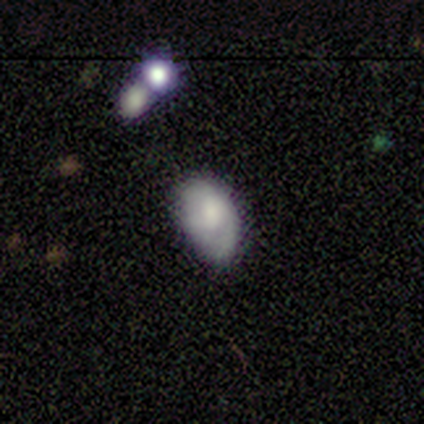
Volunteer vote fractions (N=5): This is likely a smooth galaxy (60%). How rounded: clearly in between (100%). Merging: likely minor disturbance (60%).